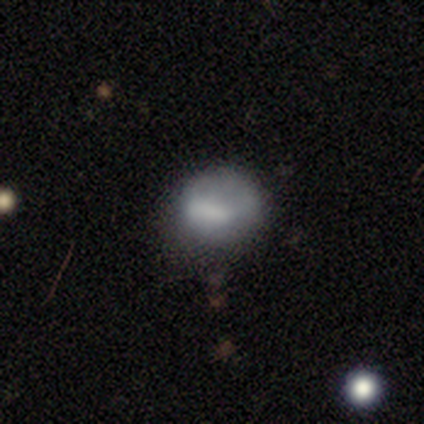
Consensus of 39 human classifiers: Overall: smooth (67%; featured or disk 28%). How rounded: round (69%; in between 31%). Merging: none (59%; minor disturbance 24%).